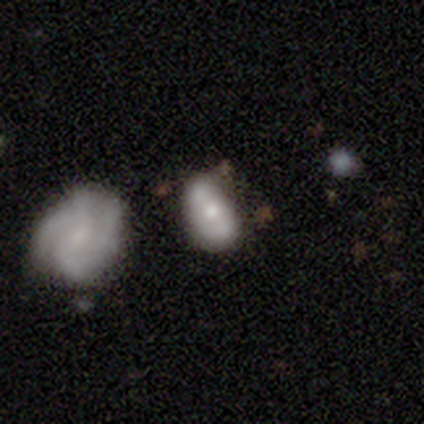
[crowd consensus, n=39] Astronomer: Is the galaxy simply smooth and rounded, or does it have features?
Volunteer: featured or disk — 51% (runner-up: smooth, 44%).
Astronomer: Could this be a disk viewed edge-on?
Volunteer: no — 100%.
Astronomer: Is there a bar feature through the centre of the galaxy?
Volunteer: no — 80%.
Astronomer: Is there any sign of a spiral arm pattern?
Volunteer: yes — 55% (runner-up: no, 45%).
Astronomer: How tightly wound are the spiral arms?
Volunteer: loose — 45% (runner-up: tight, 36%).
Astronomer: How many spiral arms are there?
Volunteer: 2 — 55%.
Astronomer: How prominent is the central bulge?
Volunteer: moderate — 45% (runner-up: small, 35%).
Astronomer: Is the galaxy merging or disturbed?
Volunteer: none — 41% (runner-up: merger, 27%).